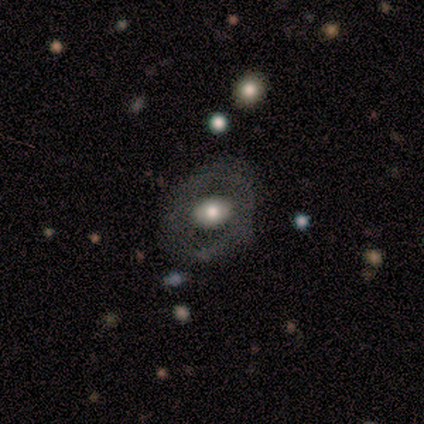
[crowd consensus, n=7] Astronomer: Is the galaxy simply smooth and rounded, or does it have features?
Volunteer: smooth — 86%.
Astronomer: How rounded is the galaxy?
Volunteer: round — 50%, tied with in between at 50%.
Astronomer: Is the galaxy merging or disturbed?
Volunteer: none — 100%.